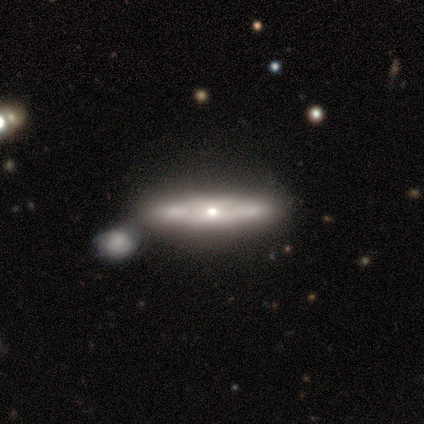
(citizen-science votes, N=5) featured or disk 100%, smooth 0%, star or artifact 0%. Down the decision tree: edge-on disk — no (60%); bar — no (67%); spiral arms — yes (67%); spiral arm count — 2 (100%); spiral winding — tight (50%, tied with loose); bulge size — moderate (33%, tied with small and none); merging — minor disturbance (40%, tied with merger).